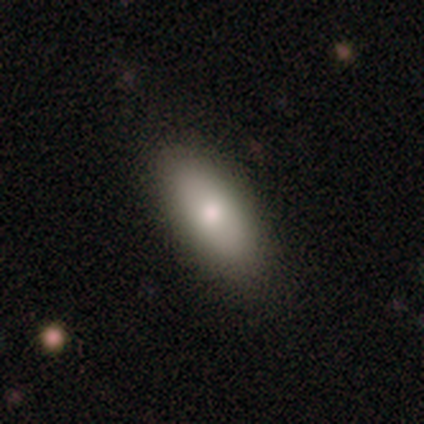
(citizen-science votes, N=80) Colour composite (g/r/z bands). It shows a smooth galaxy with no disk features (88%) that is in between round and cigar-shaped (84%). Merging: none (49%).